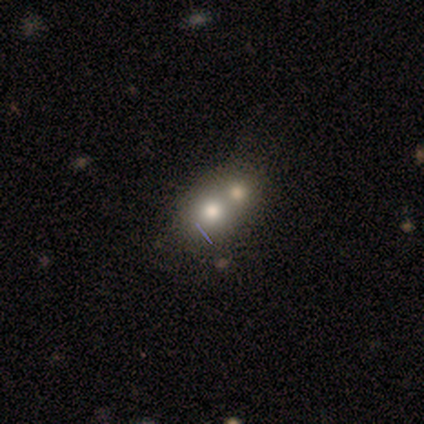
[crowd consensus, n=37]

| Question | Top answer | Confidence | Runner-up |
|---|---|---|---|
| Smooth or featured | smooth | 68% | featured or disk (27%) |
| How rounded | round | 60% | in between (32%) |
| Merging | merger | 74% | none (20%) |